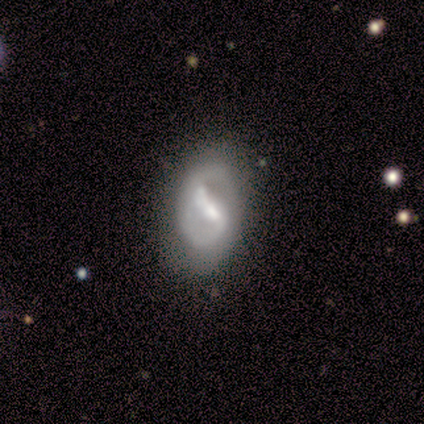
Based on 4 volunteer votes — Smooth or featured: featured or disk — 75% (smooth — 25%)
Edge-on disk: no — 100%
Bar: weak — 67% (strong — 33%)
Spiral arms: yes — 67% (no — 33%)
Spiral winding: tight — 50% (tied with medium — 50%)
Spiral arm count: 2 — 50% (tied with can't tell — 50%)
Bulge size: moderate — 100%
Merging: none — 100%